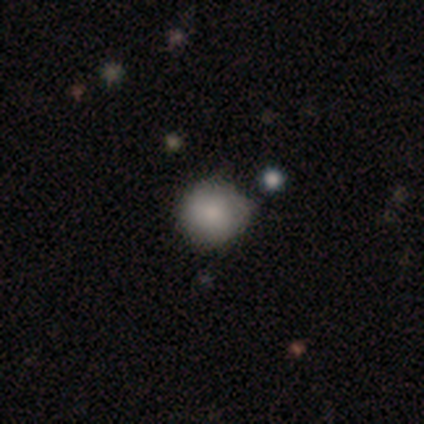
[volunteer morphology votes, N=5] type=smooth (100%); roundness=round (100%); merging=none (100%).